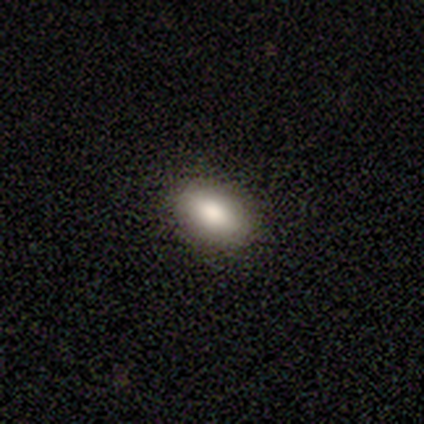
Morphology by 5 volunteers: smooth_or_featured: smooth (p=1.00)
how_rounded: in between (p=0.80) [alt: round p=0.20]
merging: none (p=0.80) [alt: minor disturbance p=0.20]